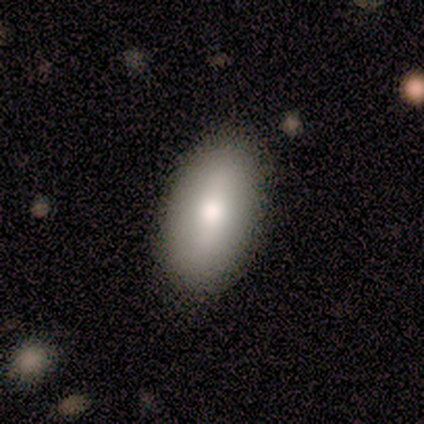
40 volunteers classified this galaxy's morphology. A smooth galaxy with no disk features (70%) that is in between round and cigar-shaped (100%). Merging: none (84%).